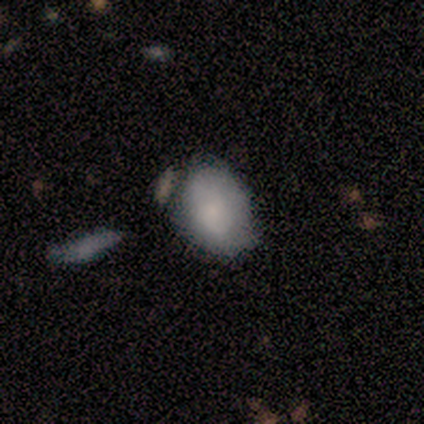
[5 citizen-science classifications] Smooth or featured: smooth — 80% (featured or disk — 20%)
How rounded: in between — 100%
Merging: none — 60% (minor disturbance — 20%)